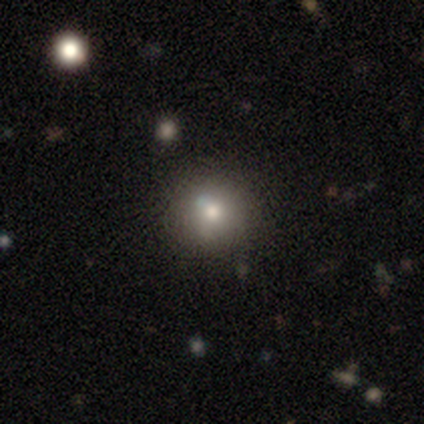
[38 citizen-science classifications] This is likely a smooth galaxy (79%). How rounded: clearly round (100%). Merging: clearly none (89%).